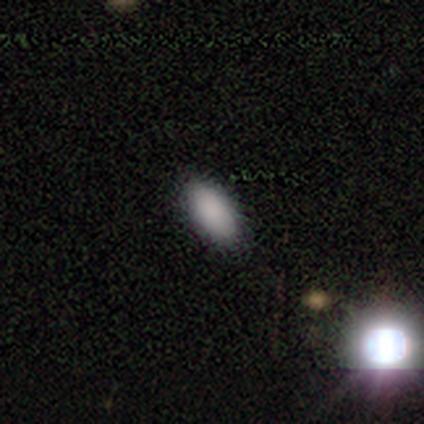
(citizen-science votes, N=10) A smooth galaxy with no disk features (90%) that is in between round and cigar-shaped (100%).

Vote fractions:
- Smooth or featured? smooth: 90% / star or artifact: 10% / featured or disk: 0%
- How rounded? in between: 100% / round: 0% / cigar-shaped: 0%
- Merging? none: 89% / minor disturbance: 11% / major disturbance: 0% / merger: 0%